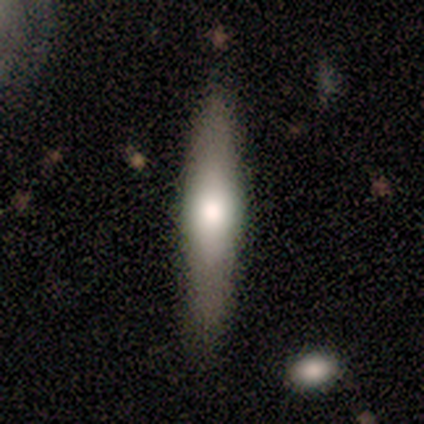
A smooth galaxy with no disk features (50%, tied with featured or disk) that is cigar-shaped (100%). Merging: none (75%).